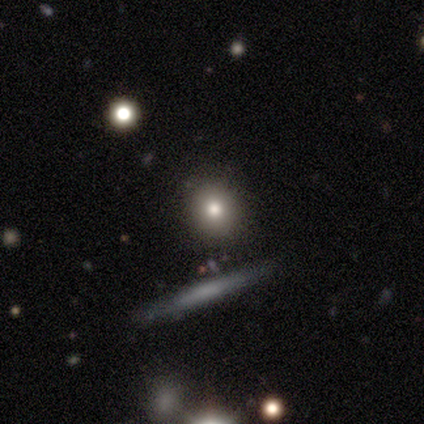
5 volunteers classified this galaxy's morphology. Smooth or featured?
  - smooth: 100% *
  - featured or disk: 0%
  - star or artifact: 0%
How rounded?
  - round: 80% *
  - in between: 20%
  - cigar-shaped: 0%
Merging?
  - none: 100% *
  - minor disturbance: 0%
  - major disturbance: 0%
  - merger: 0%